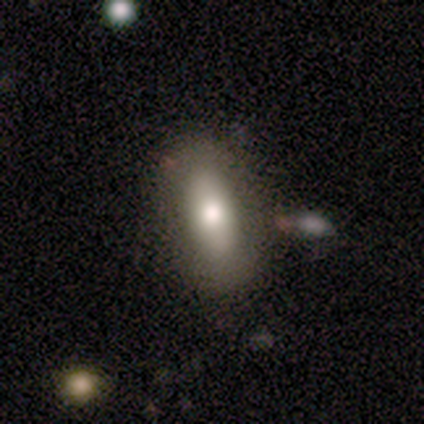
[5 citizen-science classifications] A smooth galaxy with no disk features (80%) that is in between round and cigar-shaped (100%). Merging: none (60%).